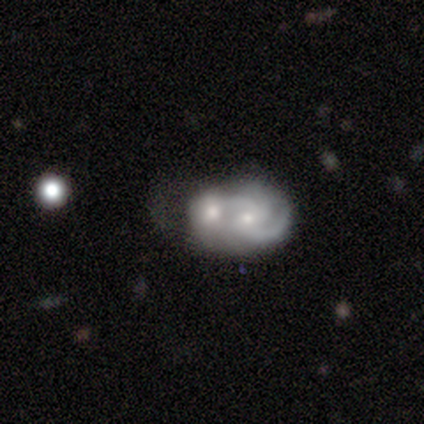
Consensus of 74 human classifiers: This is likely a featured or disk galaxy (74%). It is clearly not viewed edge-on (100%). Bar: likely no (75%). Spiral arm pattern: likely yes (75%). Spiral arm count: marginally 2 (32%). Spiral winding: possibly medium (46%). Central bulge: possibly moderate (58%). Merging: clearly merger (86%).